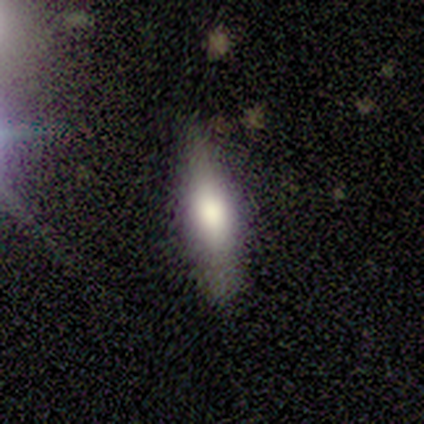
Q: Smooth or featured?
A: featured or disk (67%); runner-up: smooth (33%)
Q: Edge-on disk?
A: yes (100%)
Q: Edge-on bulge?
A: boxy (50%); tied with: rounded (50%)
Q: Merging?
A: none (100%)